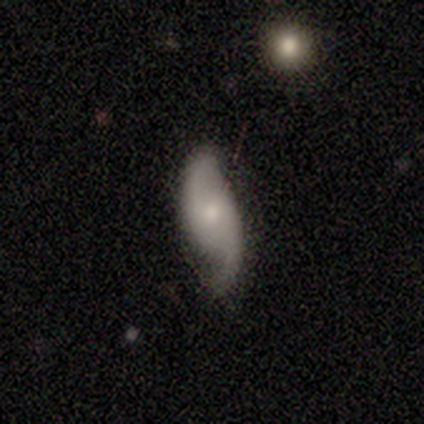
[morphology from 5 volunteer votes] smooth-or-featured: featured or disk: 100% | smooth: 0% | star or artifact: 0%
  disk-edge-on: no: 80% | yes: 20%
    bar: no: 100% | strong: 0% | weak: 0%
    has-spiral-arms: yes: 100% | no: 0%
      spiral-winding: medium: 50% (tied) | loose: 50% (tied) | tight: 0%
      spiral-arm-count: 2: 100% | 1: 0% | 3: 0% | 4: 0% | more than 4: 0% | can't tell: 0%
    bulge-size: small: 50% | moderate: 25% | none: 25% | dominant: 0% | large: 0%
  merging: none: 60% | minor disturbance: 20% | major disturbance: 20% | merger: 0%